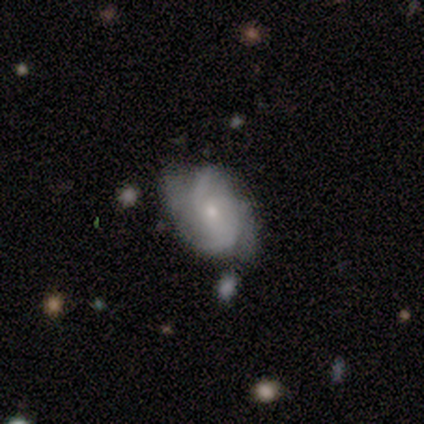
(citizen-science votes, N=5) smooth_or_featured: featured or disk (p=1.00)
disk_edge_on: no (p=1.00)
bar: no (p=1.00)
has_spiral_arms: yes (p=1.00)
spiral_winding: tight (p=0.60) [alt: medium p=0.40]
spiral_arm_count: 2 (p=0.40) [tied with: 4 p=0.40]
bulge_size: small (p=0.80) [alt: moderate p=0.20]
merging: minor disturbance (p=0.80) [alt: none p=0.20]